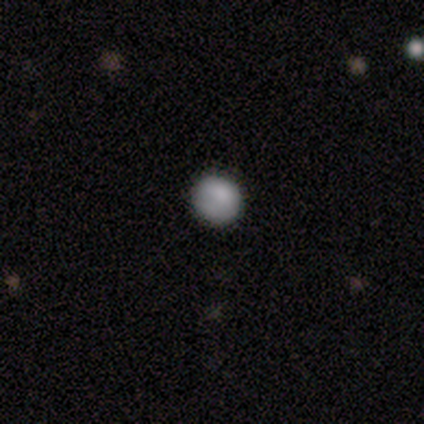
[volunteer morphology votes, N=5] smooth-or-featured: smooth: 80% | featured or disk: 20% | star or artifact: 0%
  how-rounded: round: 100% | in between: 0% | cigar-shaped: 0%
  merging: none: 80% | merger: 20% | minor disturbance: 0% | major disturbance: 0%